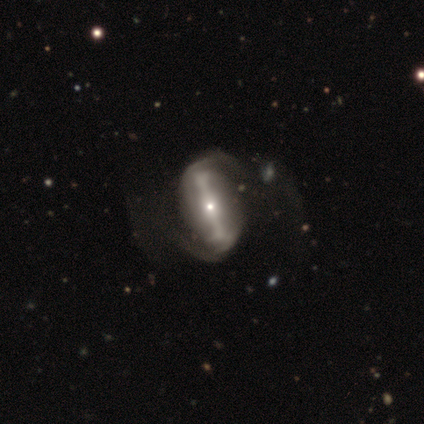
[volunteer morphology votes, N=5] Smooth or featured? featured or disk (80%)
Edge-on disk? no (75%)
Bar? strong (67%)
Spiral arms? yes (67%)
Spiral winding? medium (100%)
Spiral arm count? 2 (100%)
Bulge size? moderate (67%)
Merging? merger (50%)